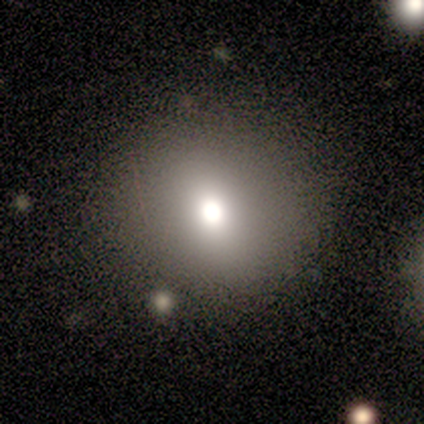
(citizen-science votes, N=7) Q: Smooth or featured?
A: smooth (86%); runner-up: featured or disk (14%)
Q: How rounded?
A: round (83%); runner-up: in between (17%)
Q: Merging?
A: none (86%); runner-up: minor disturbance (14%)